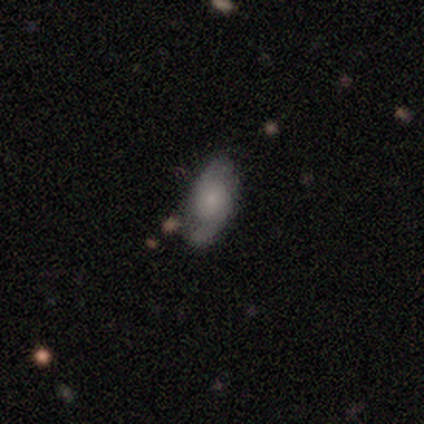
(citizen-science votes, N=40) smooth_or_featured: featured or disk (p=0.55) [alt: smooth p=0.38]
disk_edge_on: no (p=1.00)
bar: no (p=0.91) [alt: weak p=0.09]
has_spiral_arms: yes (p=0.95) [alt: no p=0.05]
spiral_winding: loose (p=0.52) [alt: medium p=0.38]
spiral_arm_count: 2 (p=0.90) [alt: can't tell p=0.10]
bulge_size: moderate (p=0.45) [alt: small p=0.36]
merging: none (p=0.78) [alt: minor disturbance p=0.16]